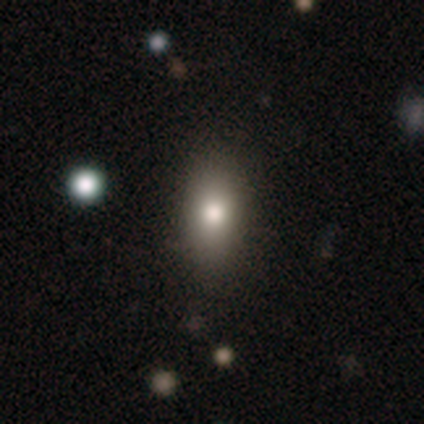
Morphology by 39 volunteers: Smooth or featured?
  - smooth: 87% *
  - featured or disk: 8%
  - star or artifact: 5%
How rounded?
  - in between: 79% *
  - cigar-shaped: 12%
  - round: 9%
Merging?
  - none: 89% *
  - minor disturbance: 8%
  - major disturbance: 3%
  - merger: 0%